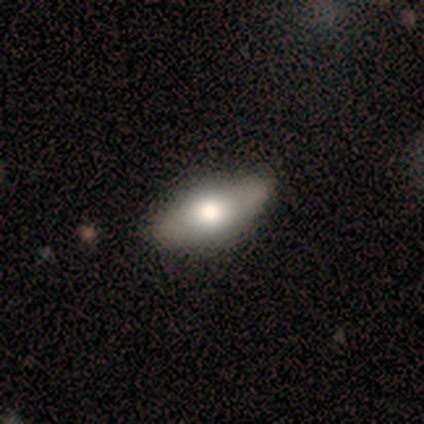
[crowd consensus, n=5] A smooth galaxy with no disk features (40%, tied with featured or disk) that is in between round and cigar-shaped (100%).

Vote fractions:
- Smooth or featured? smooth: 40% (tied) / featured or disk: 40% (tied) / star or artifact: 20%
- How rounded? in between: 100% / round: 0% / cigar-shaped: 0%
- Merging? none: 50% (tied) / minor disturbance: 50% (tied) / major disturbance: 0% / merger: 0%